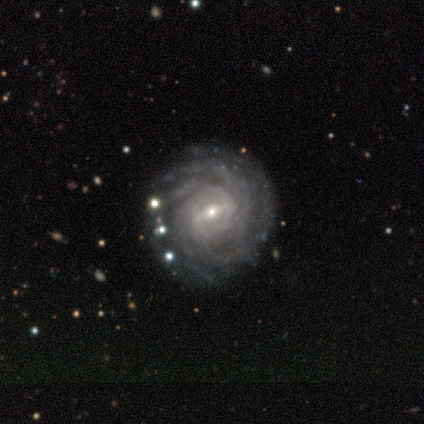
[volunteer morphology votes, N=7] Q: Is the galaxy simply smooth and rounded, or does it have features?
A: featured or disk — 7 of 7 (100%).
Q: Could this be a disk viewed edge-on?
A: no — 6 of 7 (86%).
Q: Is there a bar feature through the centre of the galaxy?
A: strong — 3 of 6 (50%).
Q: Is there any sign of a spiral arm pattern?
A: yes — 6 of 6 (100%).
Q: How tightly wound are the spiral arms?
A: tight — 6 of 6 (100%).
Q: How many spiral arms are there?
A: more than 4 — 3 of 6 (50%).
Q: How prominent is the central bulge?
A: moderate — 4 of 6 (67%).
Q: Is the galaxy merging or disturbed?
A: none — 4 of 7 (57%).